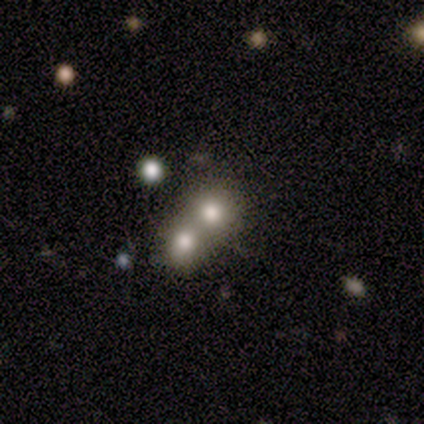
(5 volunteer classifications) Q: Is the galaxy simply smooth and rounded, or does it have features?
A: smooth — 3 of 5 (60%).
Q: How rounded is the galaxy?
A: round — 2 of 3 (67%).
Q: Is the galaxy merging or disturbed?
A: merger — 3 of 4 (75%).